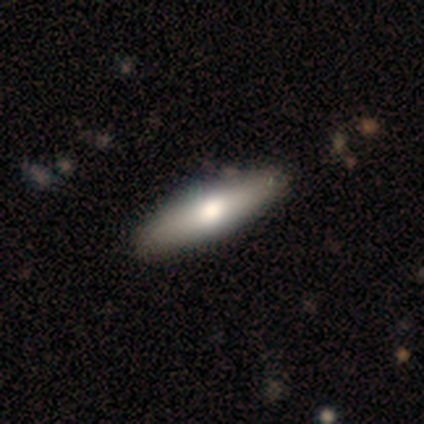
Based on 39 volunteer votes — Q: Smooth or featured?
A: smooth (67%); runner-up: featured or disk (31%)
Q: How rounded?
A: cigar-shaped (58%); runner-up: in between (38%)
Q: Merging?
A: none (79%); runner-up: minor disturbance (3%)